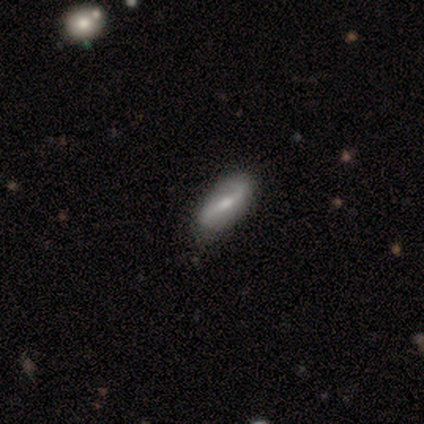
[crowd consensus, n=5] smooth-or-featured: featured or disk: 60% | smooth: 40% | star or artifact: 0%
  disk-edge-on: no: 100% | yes: 0%
    bar: strong: 33% (tied) | weak: 33% (tied) | no: 33% (tied)
    has-spiral-arms: yes: 67% | no: 33%
      spiral-winding: medium: 50% (tied) | loose: 50% (tied) | tight: 0%
      spiral-arm-count: 2: 100% | 1: 0% | 3: 0% | 4: 0% | more than 4: 0% | can't tell: 0%
    bulge-size: small: 67% | moderate: 33% | dominant: 0% | large: 0% | none: 0%
  merging: none: 80% | minor disturbance: 20% | major disturbance: 0% | merger: 0%